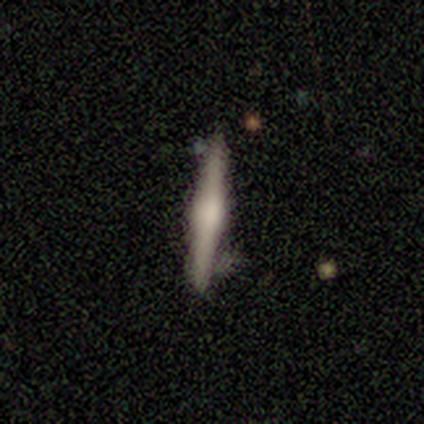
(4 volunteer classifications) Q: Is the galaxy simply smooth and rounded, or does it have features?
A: featured or disk — 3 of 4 (75%).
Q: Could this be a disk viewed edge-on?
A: yes — 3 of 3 (100%).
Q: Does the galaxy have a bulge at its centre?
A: rounded — 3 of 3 (100%).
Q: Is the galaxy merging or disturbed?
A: major disturbance — 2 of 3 (67%).